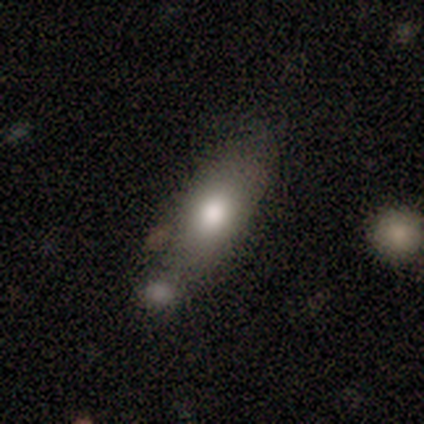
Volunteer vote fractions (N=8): smooth_or_featured: smooth (p=0.50) [alt: featured or disk p=0.25]
how_rounded: in between (p=1.00)
merging: none (p=0.67) [alt: minor disturbance p=0.17]